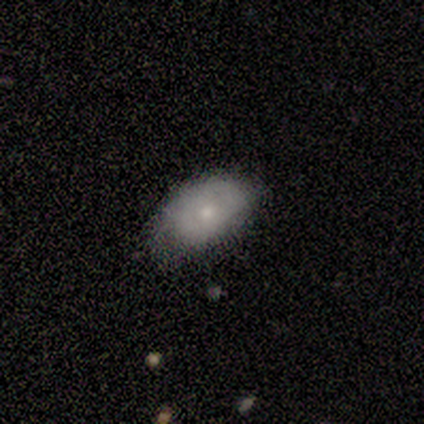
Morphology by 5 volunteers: Smooth or featured?
  - smooth: 100% *
  - featured or disk: 0%
  - star or artifact: 0%
How rounded?
  - in between: 100% *
  - round: 0%
  - cigar-shaped: 0%
Merging?
  - minor disturbance: 60% *
  - none: 40%
  - major disturbance: 0%
  - merger: 0%